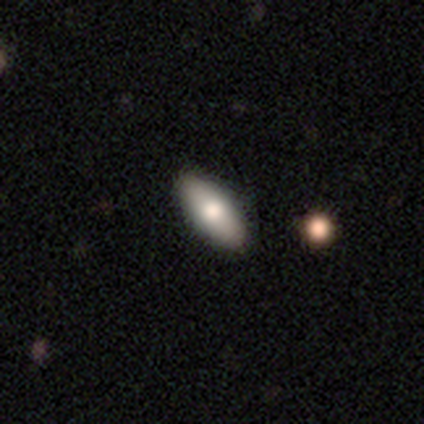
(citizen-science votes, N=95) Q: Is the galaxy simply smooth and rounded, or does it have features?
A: smooth — 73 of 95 (77%).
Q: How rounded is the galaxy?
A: in between — 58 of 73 (79%).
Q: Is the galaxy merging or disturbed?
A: none — 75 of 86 (87%).